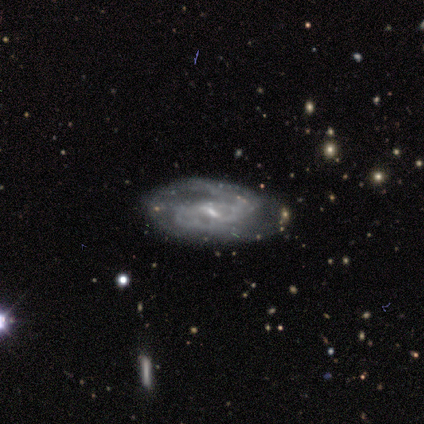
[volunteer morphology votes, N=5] A featured or disk galaxy (100%) with a weak bar (100%), 2 (100%) loose (67%) spiral arms (60%) and a small central bulge (100%).

Vote fractions:
- Smooth or featured? featured or disk: 100% / smooth: 0% / star or artifact: 0%
- Edge-on disk? no: 100% / yes: 0%
- Bar? weak: 100% / strong: 0% / no: 0%
- Spiral arms? yes: 60% / no: 40%
- Spiral winding? loose: 67% / tight: 33% / medium: 0%
- Spiral arm count? 2: 100% / 1: 0% / 3: 0% / 4: 0% / more than 4: 0% / can't tell: 0%
- Bulge size? small: 100% / dominant: 0% / large: 0% / moderate: 0% / none: 0%
- Merging? none: 80% / minor disturbance: 20% / major disturbance: 0% / merger: 0%